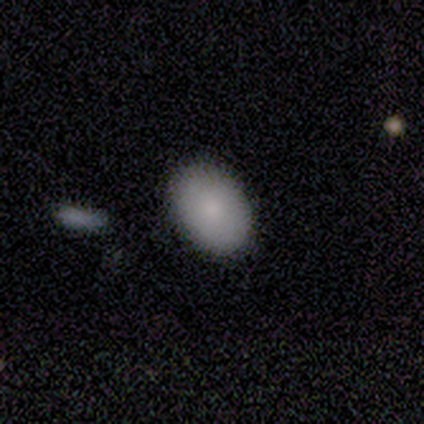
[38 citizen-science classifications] This appears to be a smooth galaxy with no disk features (79%) that is in between round and cigar-shaped (73%). Merging: none (79%).